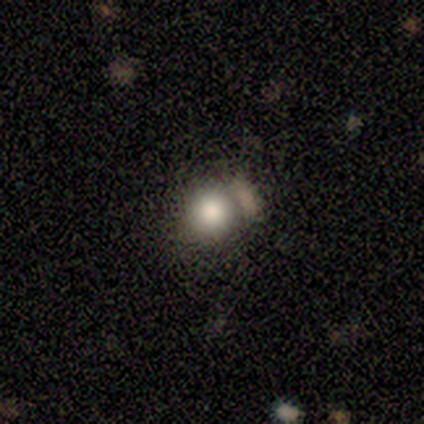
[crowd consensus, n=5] A smooth galaxy with no disk features (100%) that is round (80%).

Vote fractions:
- Smooth or featured? smooth: 100% / featured or disk: 0% / star or artifact: 0%
- How rounded? round: 80% / in between: 20% / cigar-shaped: 0%
- Merging? none: 60% / minor disturbance: 20% / merger: 20% / major disturbance: 0%